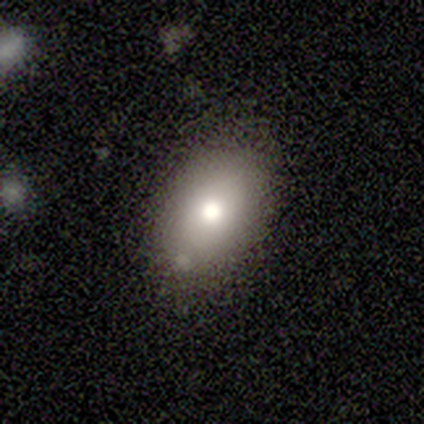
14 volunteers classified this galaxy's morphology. smooth-or-featured: smooth: 93% | featured or disk: 7% | star or artifact: 0%
  how-rounded: in between: 100% | round: 0% | cigar-shaped: 0%
  merging: none: 57% | minor disturbance: 43% | major disturbance: 0% | merger: 0%